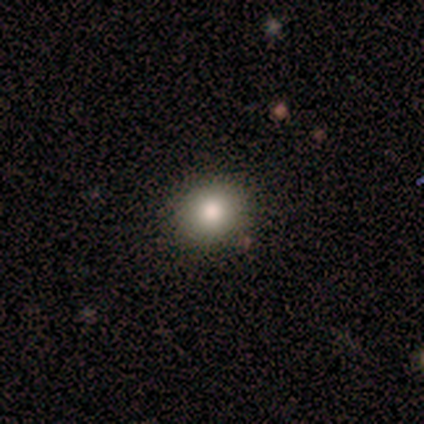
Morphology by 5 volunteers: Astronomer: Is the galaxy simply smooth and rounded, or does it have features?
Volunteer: smooth — 80%.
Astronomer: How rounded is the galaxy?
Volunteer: round — 100%.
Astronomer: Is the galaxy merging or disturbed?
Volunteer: none — 75%.